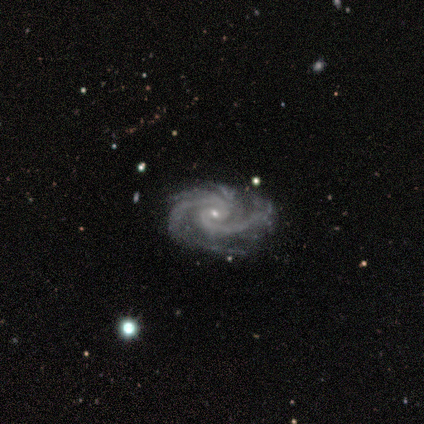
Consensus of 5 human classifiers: Smooth or featured? 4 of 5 (80%) said featured or disk. Edge-on disk? 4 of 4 (100%) said no. Bar? 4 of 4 (100%) said no. Spiral arms? 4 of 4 (100%) said yes. Spiral winding? 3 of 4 (75%) said tight. Spiral arm count? 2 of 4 (50%) said 2. Bulge size? 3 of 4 (75%) said small. Merging? 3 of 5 (60%) said none.